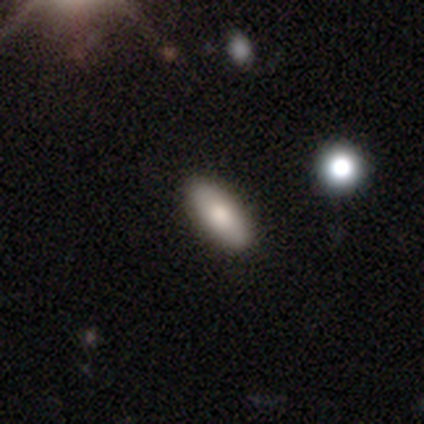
Morphology: type=smooth (75%); roundness=in between (100%); merging=none (100%).